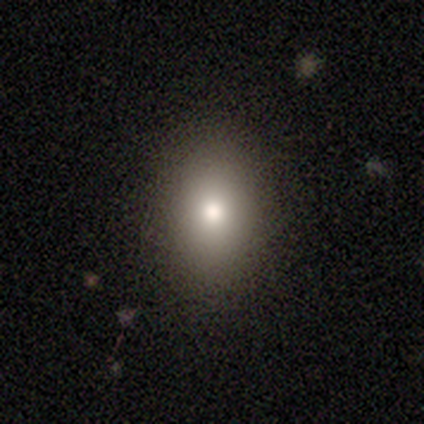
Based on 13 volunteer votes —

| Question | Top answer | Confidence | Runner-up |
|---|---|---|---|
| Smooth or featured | smooth | 77% | star or artifact (15%) |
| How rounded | in between | 80% | round (20%) |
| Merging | none | 91% | minor disturbance (9%) |